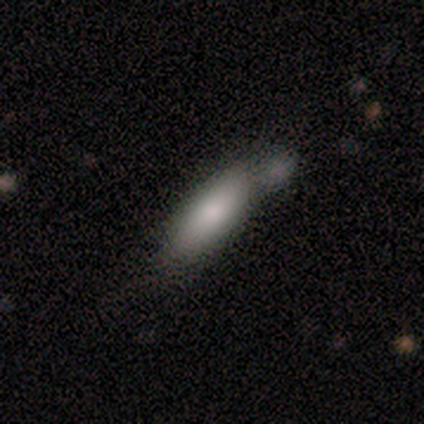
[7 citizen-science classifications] Volunteers were most divided on "how rounded" (2-way tie): in between: 50%, cigar-shaped: 50%, round: 0%; "merging" (2-way tie): none: 43%, merger: 43%, minor disturbance: 14%, major disturbance: 0%. More confident: smooth or featured — smooth (86%).